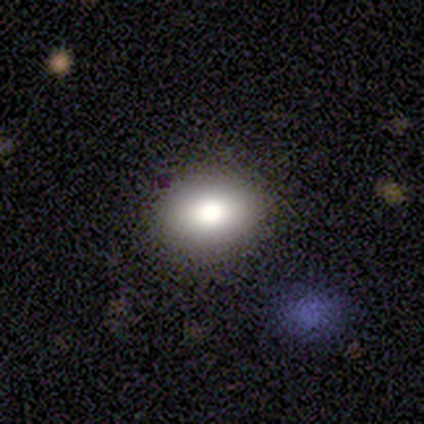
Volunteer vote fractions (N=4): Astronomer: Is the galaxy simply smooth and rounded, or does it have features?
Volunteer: smooth — 75%.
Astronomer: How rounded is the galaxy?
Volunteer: round — 67%.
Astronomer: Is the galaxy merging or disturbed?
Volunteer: none — 75%.